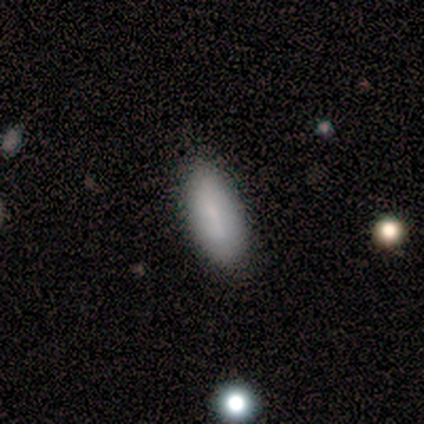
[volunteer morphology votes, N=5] Q: Smooth or featured?
A: smooth (80%); runner-up: featured or disk (20%)
Q: How rounded?
A: in between (100%)
Q: Merging?
A: none (100%)